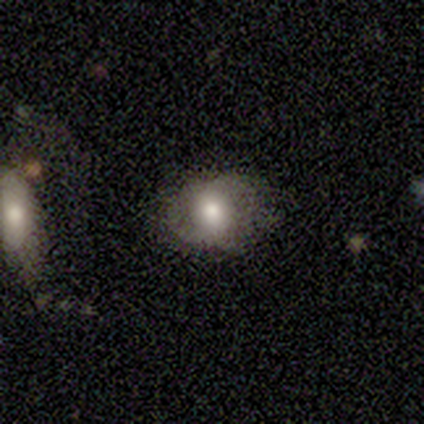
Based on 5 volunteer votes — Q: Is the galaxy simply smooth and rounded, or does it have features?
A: smooth — 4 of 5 (80%).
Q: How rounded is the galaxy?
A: round — 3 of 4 (75%).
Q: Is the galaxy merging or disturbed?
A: none — 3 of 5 (60%).